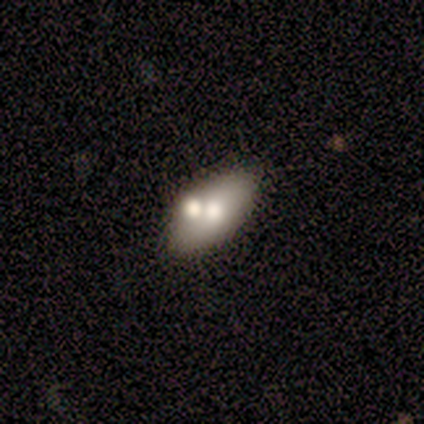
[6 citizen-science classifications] smooth 67%, featured or disk 17%, star or artifact 17%. Down the decision tree: how rounded — in between (100%); merging — merger (80%).